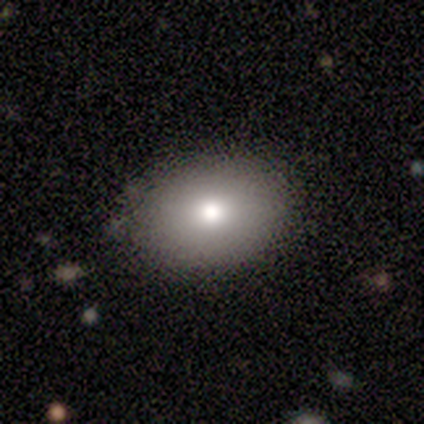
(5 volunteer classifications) A smooth galaxy with no disk features (80%) that is in between round and cigar-shaped (75%). Merging: none (75%).